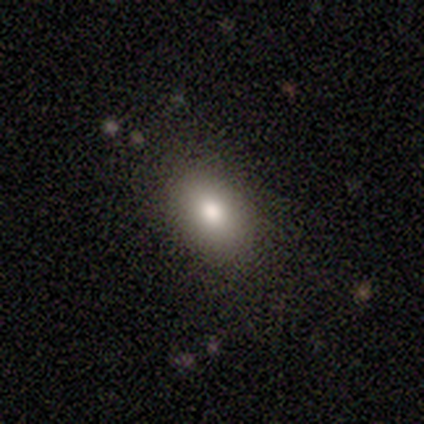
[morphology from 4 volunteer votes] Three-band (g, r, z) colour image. It shows a smooth galaxy with no disk features (100%) that is in between round and cigar-shaped (100%). Merging: none (100%).